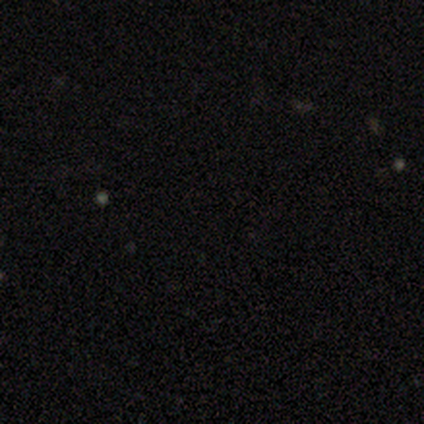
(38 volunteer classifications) Smooth or featured? star or artifact (89%)